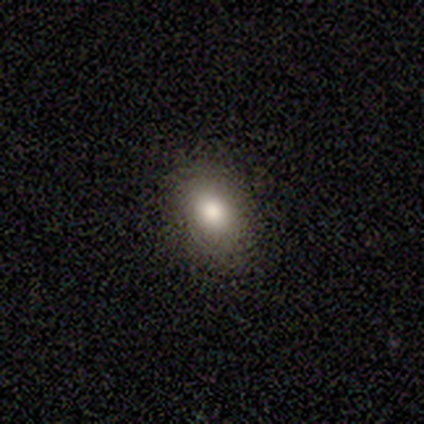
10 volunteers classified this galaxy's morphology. Q: Smooth or featured?
A: smooth (70%); runner-up: featured or disk (30%)
Q: How rounded?
A: in between (100%)
Q: Merging?
A: none (80%); runner-up: minor disturbance (20%)